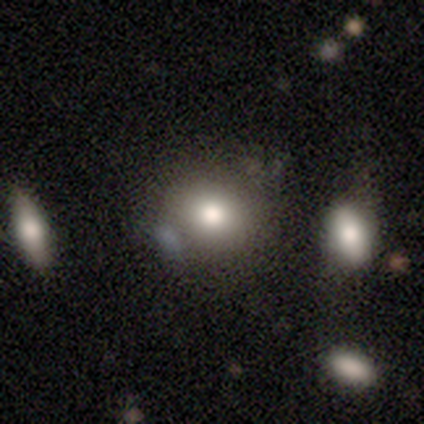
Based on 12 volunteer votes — Volunteers were most divided on "smooth or featured": smooth: 67%, featured or disk: 25%, star or artifact: 8%. More confident: how rounded — round (88%); merging — none (82%).